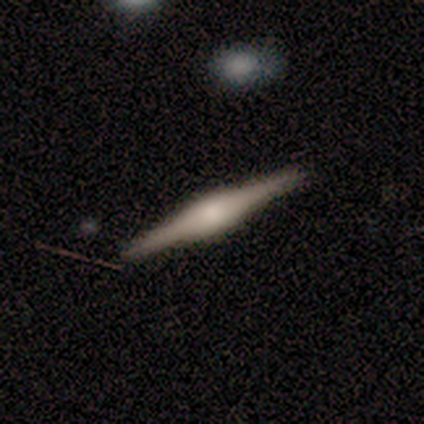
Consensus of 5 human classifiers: Smooth or featured? featured or disk (100%)
Edge-on disk? yes (80%)
Edge-on bulge? rounded (75%)
Merging? none (100%)